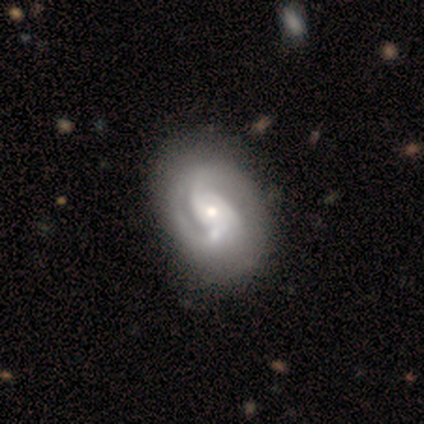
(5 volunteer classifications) This is clearly a featured or disk galaxy (100%). It is clearly not viewed edge-on (100%). Bar: clearly no (80%). Spiral arm pattern: clearly yes (100%). Spiral arm count: likely 2 (60%). Spiral winding: likely medium (60%). Central bulge: likely small (60%). Merging: likely minor disturbance (60%).